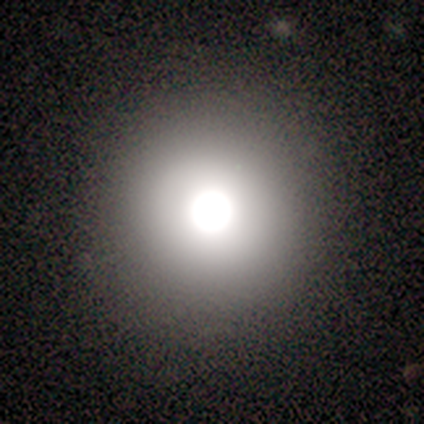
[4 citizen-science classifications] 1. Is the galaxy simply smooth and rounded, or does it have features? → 50% smooth, 25% featured or disk, 25% star or artifact.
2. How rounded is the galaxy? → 100% round, 0% in between, 0% cigar-shaped.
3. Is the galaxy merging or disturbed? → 100% none, 0% minor disturbance, 0% major disturbance, 0% merger.